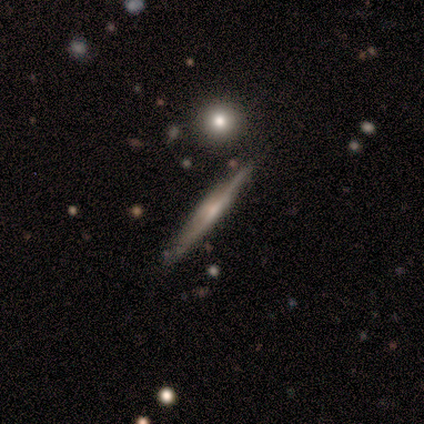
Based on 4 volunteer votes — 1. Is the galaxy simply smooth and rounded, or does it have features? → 100% featured or disk, 0% smooth, 0% star or artifact.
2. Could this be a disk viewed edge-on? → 100% yes, 0% no.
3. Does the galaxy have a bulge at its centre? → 75% rounded, 25% none, 0% boxy.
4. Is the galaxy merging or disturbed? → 50% none (tied), 50% minor disturbance (tied), 0% major disturbance, 0% merger.